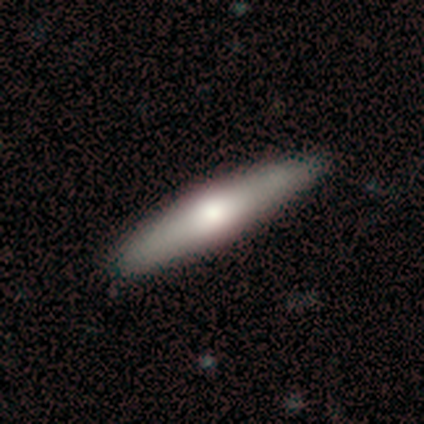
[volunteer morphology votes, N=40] Volunteers were most divided on "smooth or featured": smooth: 72%, featured or disk: 20%, star or artifact: 8%. More confident: merging — none (95%); how rounded — cigar-shaped (90%).